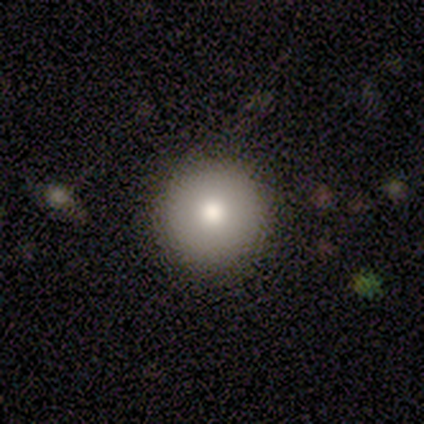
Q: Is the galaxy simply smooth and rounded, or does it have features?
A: smooth — 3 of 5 (60%).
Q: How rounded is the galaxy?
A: round — 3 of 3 (100%).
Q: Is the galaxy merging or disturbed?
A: none — 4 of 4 (100%).